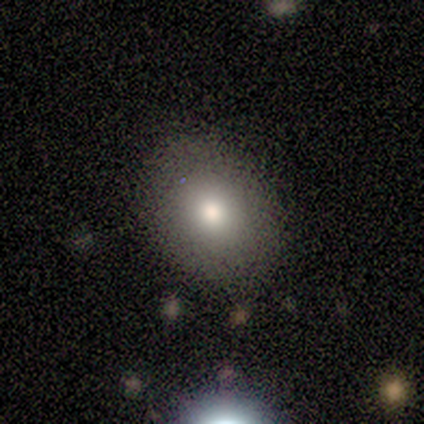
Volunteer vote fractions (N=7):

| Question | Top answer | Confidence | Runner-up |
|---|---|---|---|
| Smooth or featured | smooth | 57% | featured or disk (43%) |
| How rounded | round | 50% | tied: in between (50%) |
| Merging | none | 100% | — |